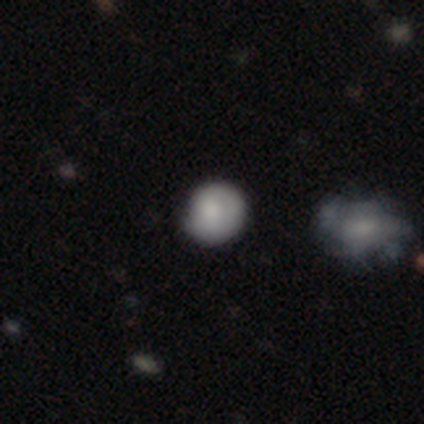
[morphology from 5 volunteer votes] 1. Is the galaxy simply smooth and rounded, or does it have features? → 100% smooth, 0% featured or disk, 0% star or artifact.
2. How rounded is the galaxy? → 80% round, 20% in between, 0% cigar-shaped.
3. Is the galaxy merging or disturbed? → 40% none (tied), 40% minor disturbance (tied), 20% major disturbance, 0% merger.